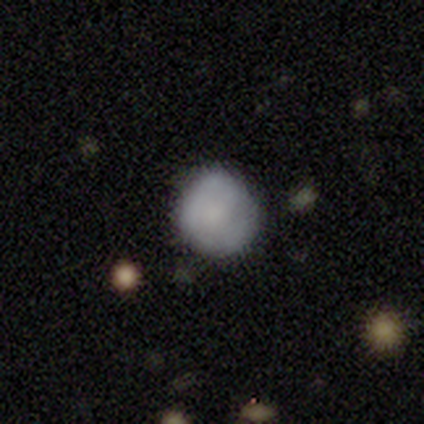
Smooth or featured: smooth — 80% (featured or disk — 20%)
How rounded: round — 100%
Merging: none — 60% (minor disturbance — 20%)